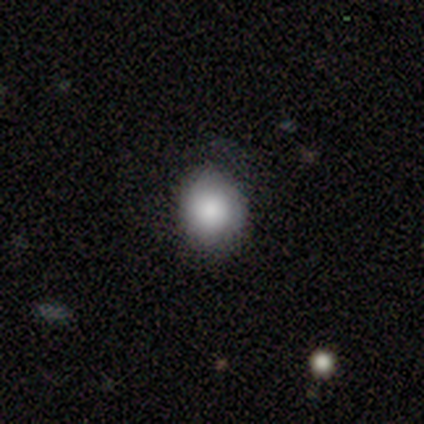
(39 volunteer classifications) A smooth galaxy with no disk features (85%) that is round (82%).

Vote fractions:
- Smooth or featured? smooth: 85% / featured or disk: 8% / star or artifact: 8%
- How rounded? round: 82% / in between: 18% / cigar-shaped: 0%
- Merging? none: 81% / minor disturbance: 17% / major disturbance: 3% / merger: 0%